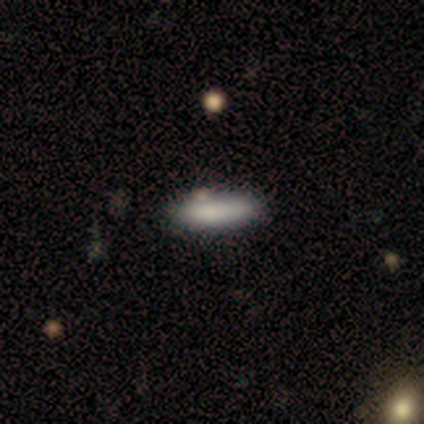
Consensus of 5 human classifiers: Volunteers were most divided on "how rounded": cigar-shaped: 75%, in between: 25%, round: 0%. More confident: smooth or featured — smooth (80%); merging — none (75%).